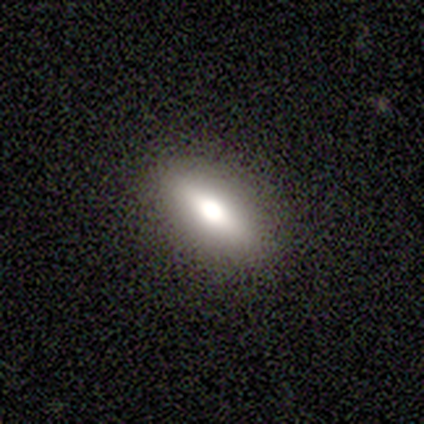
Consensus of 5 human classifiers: Smooth or featured? smooth (80%)
How rounded? in between (100%)
Merging? none (100%)